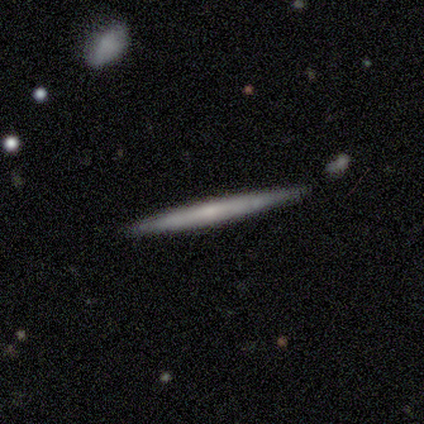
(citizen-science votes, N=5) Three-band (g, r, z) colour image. It shows a smooth galaxy with no disk features (80%) that is cigar-shaped (100%). Merging: none (80%).